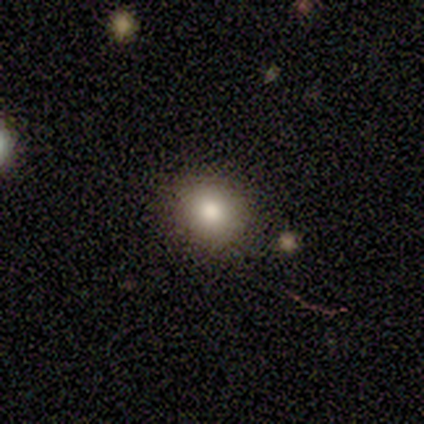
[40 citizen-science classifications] Smooth or featured? smooth (85%)
How rounded? round (68%)
Merging? none (62%)